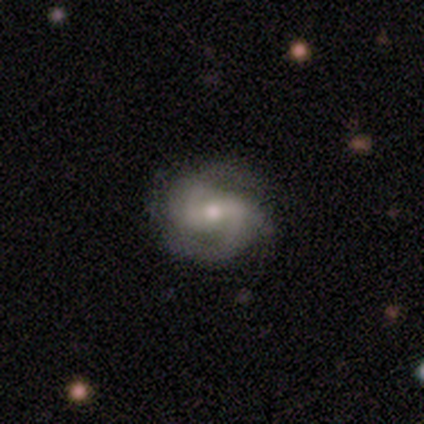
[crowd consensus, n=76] A featured or disk galaxy (87%) with a weak bar (42%), 2 (84%) medium (61%) spiral arms (95%) and a moderate central bulge (71%). Merging: none (70%).